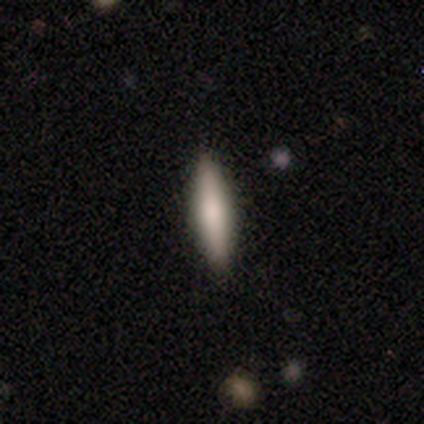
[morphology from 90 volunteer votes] Smooth or featured: smooth — 70% (featured or disk — 24%)
How rounded: cigar-shaped — 90% (in between — 10%)
Merging: none — 88% (minor disturbance — 8%)